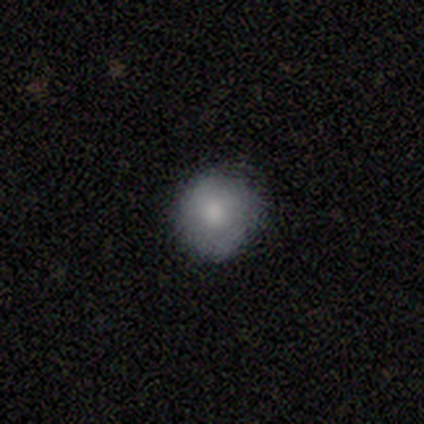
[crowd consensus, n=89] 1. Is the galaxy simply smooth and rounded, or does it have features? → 82% smooth, 12% featured or disk, 6% star or artifact.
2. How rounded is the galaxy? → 96% round, 4% in between, 0% cigar-shaped.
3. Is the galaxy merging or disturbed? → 82% none, 14% minor disturbance, 2% major disturbance, 1% merger.